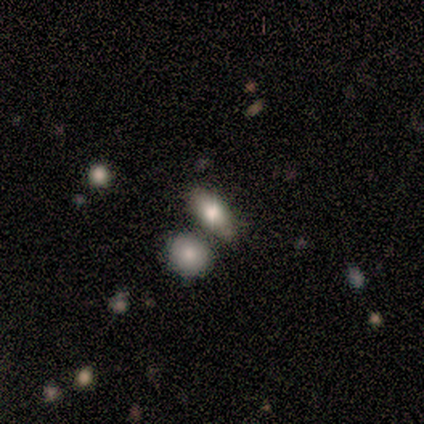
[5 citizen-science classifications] Smooth or featured? 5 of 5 (100%) said smooth. How rounded? 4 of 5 (80%) said in between. Merging? 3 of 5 (60%) said merger.